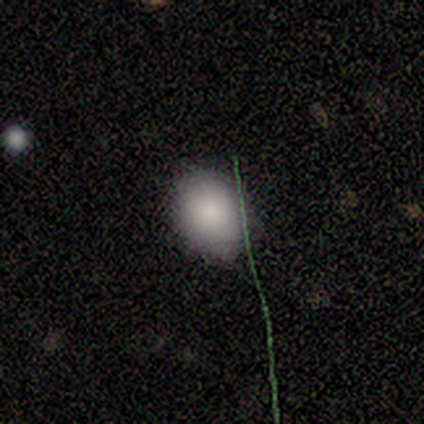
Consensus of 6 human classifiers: smooth_or_featured: smooth (p=0.67) [alt: featured or disk p=0.17]
how_rounded: in between (p=0.75) [alt: round p=0.25]
merging: none (p=0.80) [alt: minor disturbance p=0.20]